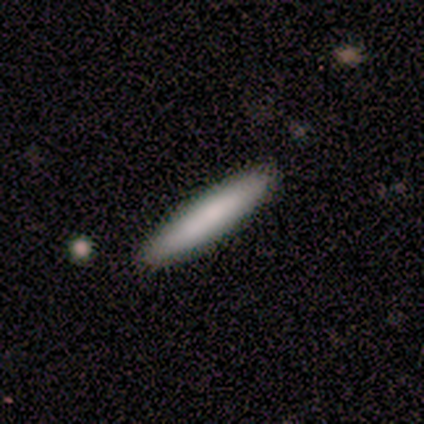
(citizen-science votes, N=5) Volunteers were most divided on "smooth or featured": smooth: 80%, featured or disk: 20%, star or artifact: 0%. More confident: how rounded — cigar-shaped (100%); merging — none (100%).